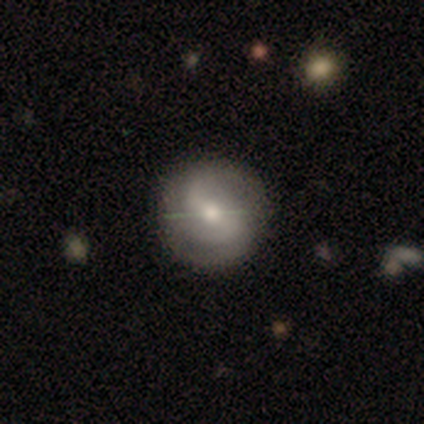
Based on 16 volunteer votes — A featured or disk galaxy (56%) with a strong bar (44%), 2 (56%) medium (78%) spiral arms (100%) and a moderate central bulge (67%).

Vote fractions:
- Smooth or featured? featured or disk: 56% / smooth: 38% / star or artifact: 6%
- Edge-on disk? no: 100% / yes: 0%
- Bar? strong: 44% / weak: 33% / no: 22%
- Spiral arms? yes: 100% / no: 0%
- Spiral winding? medium: 78% / tight: 22% / loose: 0%
- Spiral arm count? 2: 56% / 3: 22% / can't tell: 22% / 1: 0% / 4: 0% / more than 4: 0%
- Bulge size? moderate: 67% / small: 33% / dominant: 0% / large: 0% / none: 0%
- Merging? none: 73% / minor disturbance: 20% / major disturbance: 7% / merger: 0%